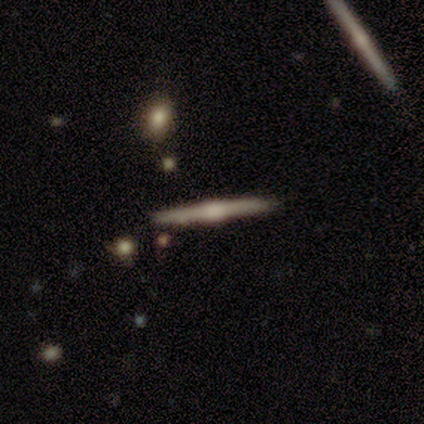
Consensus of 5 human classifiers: A featured or disk galaxy (100%) viewed edge-on (100%) with a rounded central bulge (100%). Merging: none (100%).